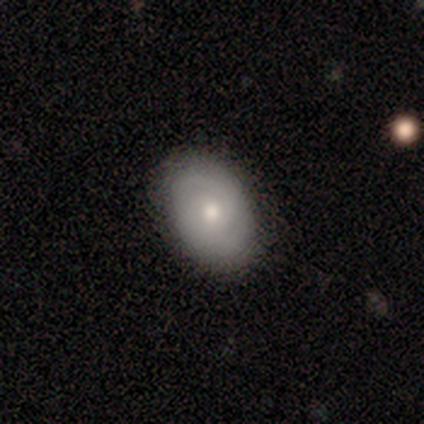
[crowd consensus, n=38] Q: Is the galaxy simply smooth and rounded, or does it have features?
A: smooth — 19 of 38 (50%).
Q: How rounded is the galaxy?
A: in between — 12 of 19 (63%).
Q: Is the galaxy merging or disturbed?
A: none — 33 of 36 (92%).